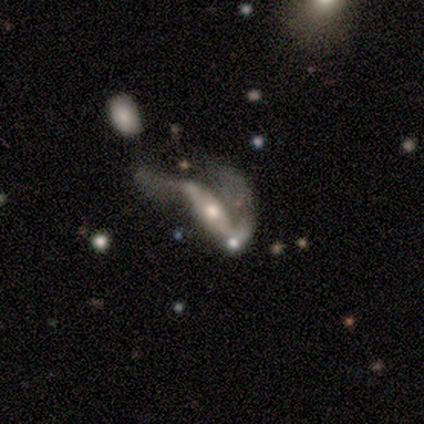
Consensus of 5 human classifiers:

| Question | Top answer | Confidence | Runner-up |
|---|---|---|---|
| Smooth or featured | featured or disk | 80% | smooth (20%) |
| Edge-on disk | no | 75% | yes (25%) |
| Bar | no | 100% | — |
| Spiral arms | yes | 67% | no (33%) |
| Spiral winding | medium | 50% | tied: loose (50%) |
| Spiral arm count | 1 | 50% | tied: 2 (50%) |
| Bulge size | moderate | 67% | small (33%) |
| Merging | major disturbance | 80% | merger (20%) |